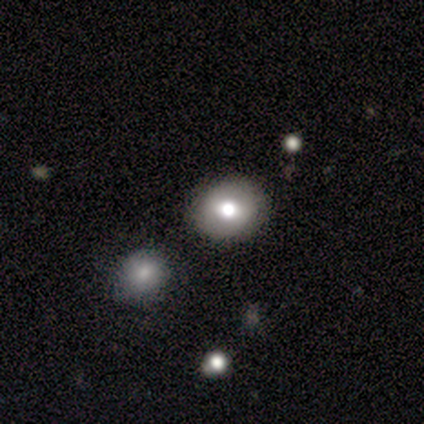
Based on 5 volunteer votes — smooth-or-featured: smooth: 80% | featured or disk: 20% | star or artifact: 0%
  how-rounded: in between: 75% | round: 25% | cigar-shaped: 0%
  merging: none: 100% | minor disturbance: 0% | major disturbance: 0% | merger: 0%